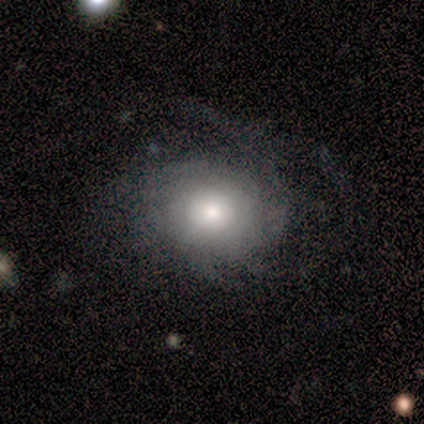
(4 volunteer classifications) Morphology: type=featured or disk (100%); edge-on=no (100%); bar=no (100%); spiral arms=yes (50%, tied with no); winding=tight (100%); arm count=3 (50%, tied with can't tell); bulge=moderate (75%); merging=none (50%).